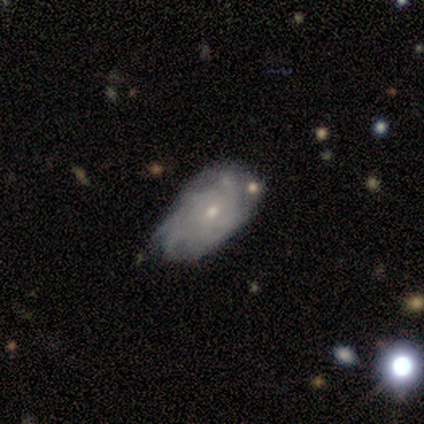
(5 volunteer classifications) This is likely a featured or disk galaxy (60%). It is clearly not viewed edge-on (100%). Bar: clearly no (100%). Spiral arm pattern: clearly yes (100%). Spiral arm count: marginally 3 (33%, tied with more than 4 and can't tell). Spiral winding: likely tight (67%). Central bulge: clearly small (100%). Merging: likely none (60%).